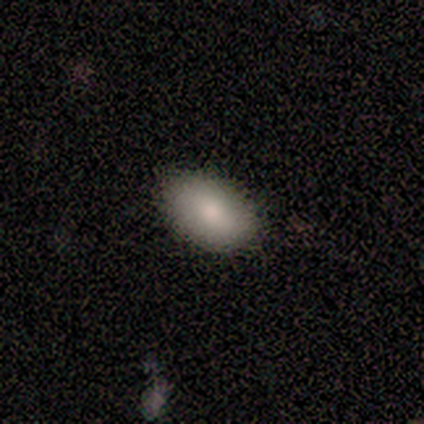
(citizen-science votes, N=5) A smooth galaxy with no disk features (80%) that is in between round and cigar-shaped (75%).

Vote fractions:
- Smooth or featured? smooth: 80% / star or artifact: 20% / featured or disk: 0%
- How rounded? in between: 75% / round: 25% / cigar-shaped: 0%
- Merging? none: 100% / minor disturbance: 0% / major disturbance: 0% / merger: 0%